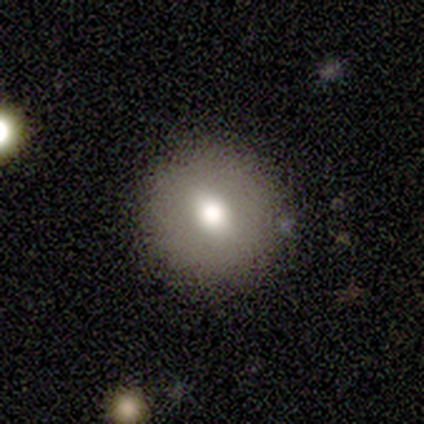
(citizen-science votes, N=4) A smooth galaxy with no disk features (100%) that is round (50%). Merging: none (100%).